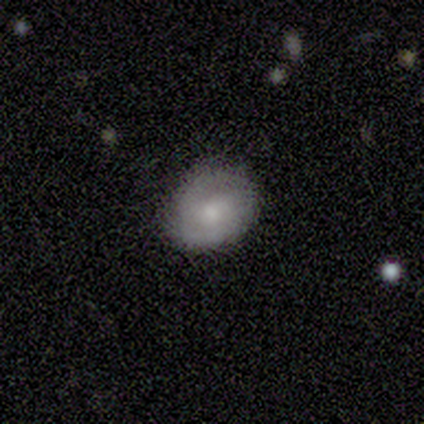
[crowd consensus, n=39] Overall: smooth (62%; featured or disk 36%). How rounded: round (62%; in between 38%). Merging: none (71%).